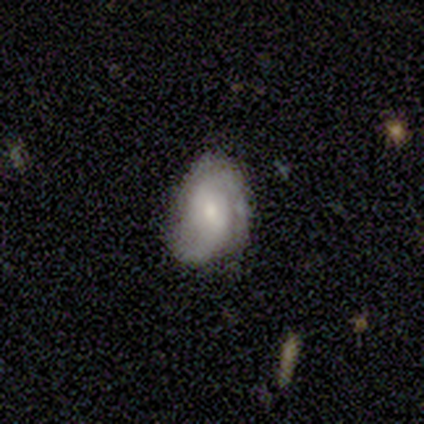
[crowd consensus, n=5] A featured or disk galaxy (60%) with no bar (100%), 2 (67%) medium (67%) spiral arms (100%) and a small central bulge (67%).

Vote fractions:
- Smooth or featured? featured or disk: 60% / smooth: 40% / star or artifact: 0%
- Edge-on disk? no: 100% / yes: 0%
- Bar? no: 100% / strong: 0% / weak: 0%
- Spiral arms? yes: 100% / no: 0%
- Spiral winding? medium: 67% / loose: 33% / tight: 0%
- Spiral arm count? 2: 67% / can't tell: 33% / 1: 0% / 3: 0% / 4: 0% / more than 4: 0%
- Bulge size? small: 67% / moderate: 33% / dominant: 0% / large: 0% / none: 0%
- Merging? none: 40% (tied) / minor disturbance: 40% (tied) / major disturbance: 20% / merger: 0%